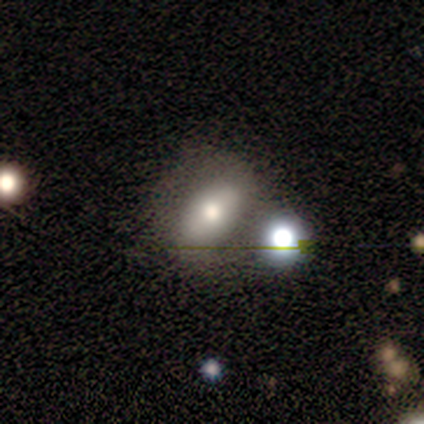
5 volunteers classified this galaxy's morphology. smooth-or-featured: smooth: 60% | featured or disk: 40% | star or artifact: 0%
  how-rounded: in between: 67% | round: 33% | cigar-shaped: 0%
  merging: merger: 60% | none: 40% | minor disturbance: 0% | major disturbance: 0%